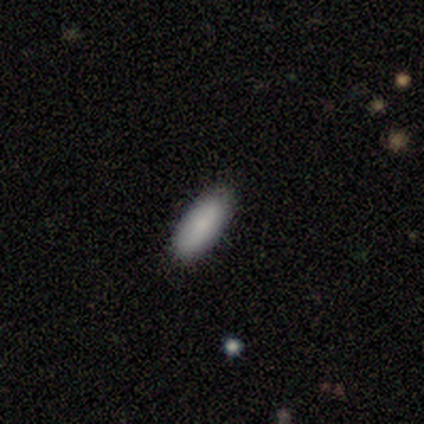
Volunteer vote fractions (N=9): Smooth or featured? 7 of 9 (78%) said smooth. How rounded? 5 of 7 (71%) said in between. Merging? 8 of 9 (89%) said none.